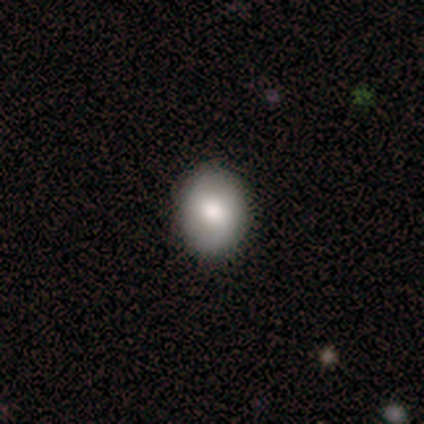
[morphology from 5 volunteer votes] This is likely a smooth galaxy (60%). How rounded: likely round (67%). Merging: clearly none (100%).